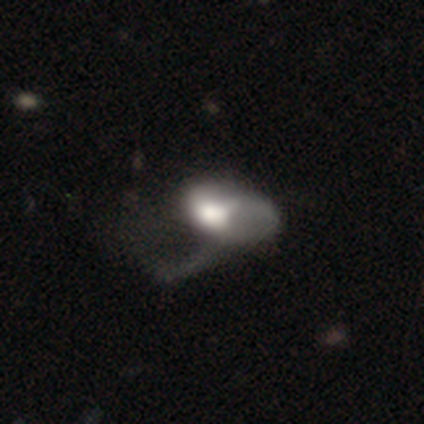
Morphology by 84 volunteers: Volunteers were most divided on "smooth or featured": smooth: 46%, featured or disk: 44%, star or artifact: 10%. More confident: how rounded — in between (90%); merging — major disturbance (79%).